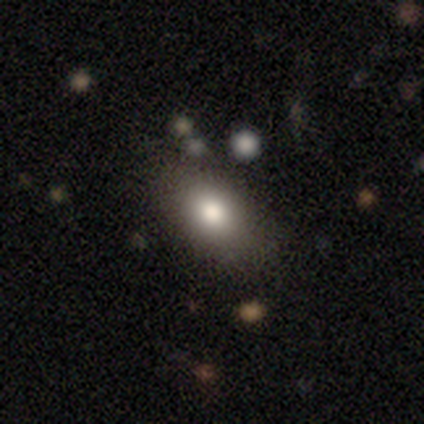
Overall: smooth (76%). How rounded: in between (91%). Merging: none (83%).